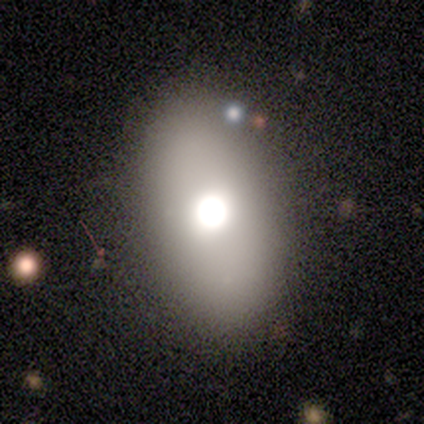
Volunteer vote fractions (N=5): smooth-or-featured: smooth: 60% | featured or disk: 40% | star or artifact: 0%
  how-rounded: in between: 100% | round: 0% | cigar-shaped: 0%
  merging: none: 80% | minor disturbance: 20% | major disturbance: 0% | merger: 0%